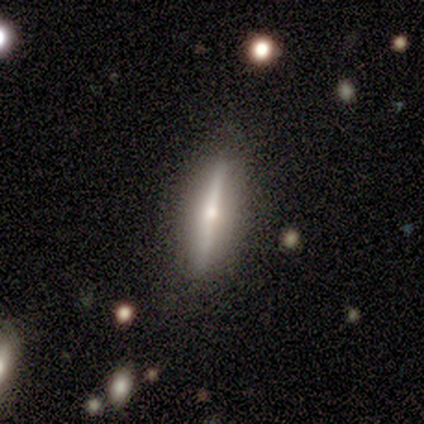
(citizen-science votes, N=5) smooth_or_featured: featured or disk (p=0.80) [alt: star or artifact p=0.20]
disk_edge_on: yes (p=1.00)
edge_on_bulge: rounded (p=0.75) [alt: none p=0.25]
merging: none (p=1.00)